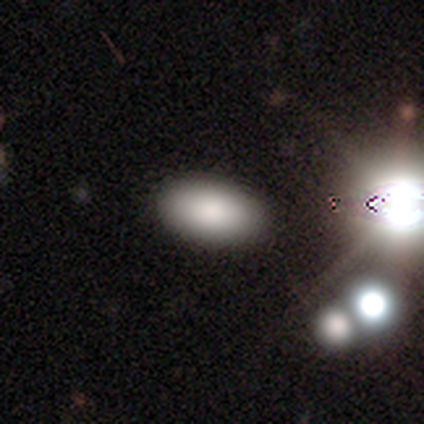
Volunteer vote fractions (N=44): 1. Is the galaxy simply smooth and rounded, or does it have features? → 86% smooth, 11% star or artifact, 2% featured or disk.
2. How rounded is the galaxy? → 89% in between, 8% round, 3% cigar-shaped.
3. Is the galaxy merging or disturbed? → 82% none, 13% minor disturbance, 5% merger, 0% major disturbance.